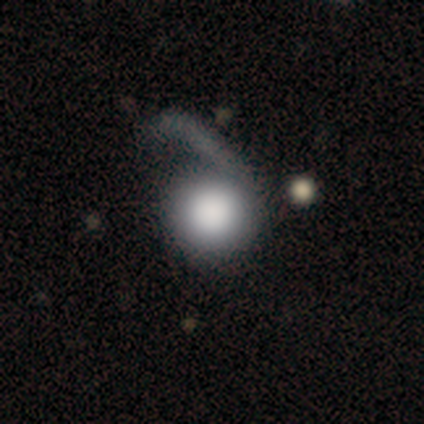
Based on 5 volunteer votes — Q: Smooth or featured?
A: smooth (80%); runner-up: star or artifact (20%)
Q: How rounded?
A: round (100%)
Q: Merging?
A: major disturbance (75%); runner-up: minor disturbance (25%)